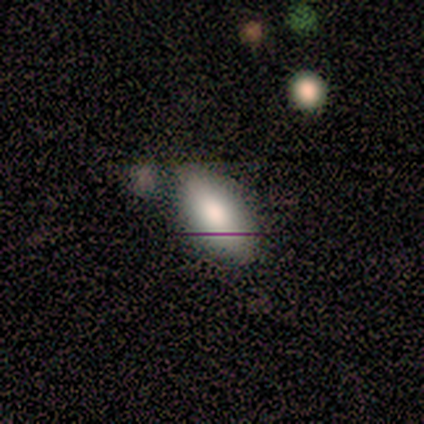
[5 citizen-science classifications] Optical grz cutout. It shows a smooth galaxy with no disk features (60%) that is in between round and cigar-shaped (67%). Merging: none (67%).